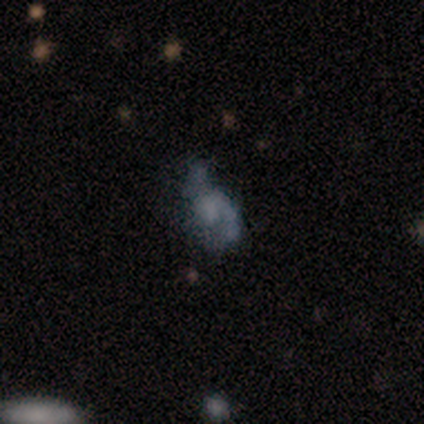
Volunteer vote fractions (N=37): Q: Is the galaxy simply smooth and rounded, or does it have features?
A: featured or disk — 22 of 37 (59%).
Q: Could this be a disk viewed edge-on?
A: no — 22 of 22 (100%).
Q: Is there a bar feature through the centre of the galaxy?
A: no — 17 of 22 (77%).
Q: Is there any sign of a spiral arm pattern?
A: yes — 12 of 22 (55%).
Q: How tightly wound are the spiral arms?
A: medium — 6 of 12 (50%).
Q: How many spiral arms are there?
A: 2 — 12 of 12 (100%).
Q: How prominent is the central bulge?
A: none — 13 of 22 (59%).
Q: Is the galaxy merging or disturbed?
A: none — 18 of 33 (55%).